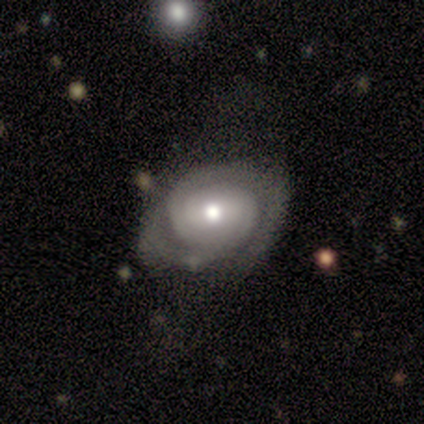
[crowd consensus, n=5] featured or disk 80%, star or artifact 20%, smooth 0%. Down the decision tree: edge-on disk — no (75%); bar — weak (67%); spiral arms — yes (67%); spiral arm count — 2 (50%, tied with 3); spiral winding — tight (50%, tied with medium); bulge size — moderate (67%); merging — none (75%).